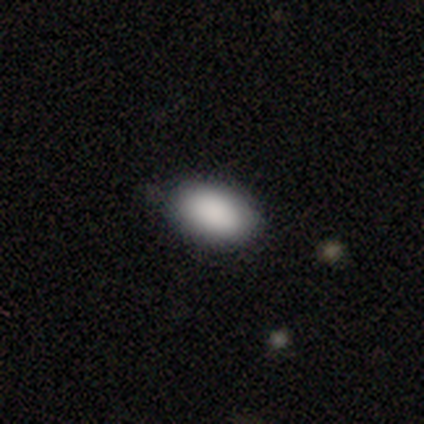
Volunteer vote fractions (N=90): Smooth or featured?
  - smooth: 91% *
  - star or artifact: 7%
  - featured or disk: 2%
How rounded?
  - in between: 93% *
  - round: 6%
  - cigar-shaped: 1%
Merging?
  - none: 81% *
  - minor disturbance: 18%
  - major disturbance: 1%
  - merger: 0%